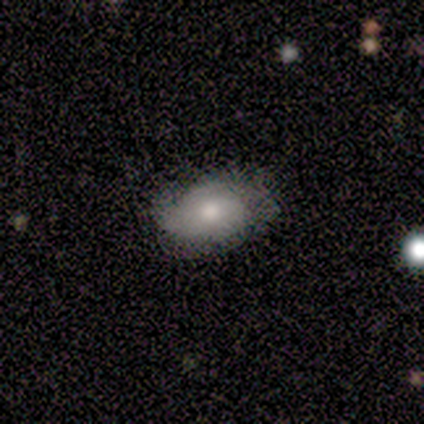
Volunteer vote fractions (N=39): Smooth or featured? 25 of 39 (64%) said smooth. How rounded? 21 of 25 (84%) said in between. Merging? 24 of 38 (63%) said none.